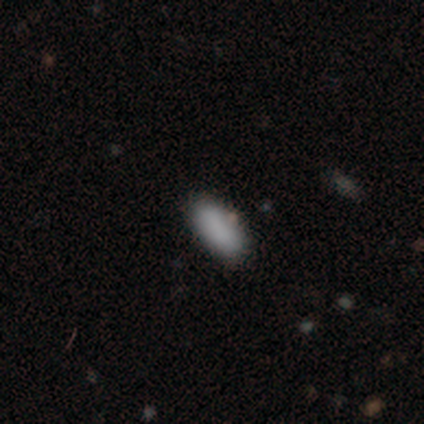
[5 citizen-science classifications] smooth-or-featured: smooth: 100% | featured or disk: 0% | star or artifact: 0%
  how-rounded: in between: 100% | round: 0% | cigar-shaped: 0%
  merging: none: 100% | minor disturbance: 0% | major disturbance: 0% | merger: 0%